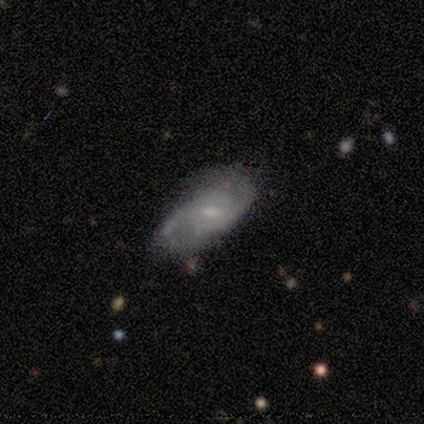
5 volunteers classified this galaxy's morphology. Smooth or featured: featured or disk — 100%
Edge-on disk: no — 100%
Bar: weak — 80% (no — 20%)
Spiral arms: yes — 100%
Spiral winding: tight — 40% (tied with medium — 40%)
Spiral arm count: 2 — 80% (1 — 20%)
Bulge size: small — 80% (moderate — 20%)
Merging: minor disturbance — 60% (none — 40%)